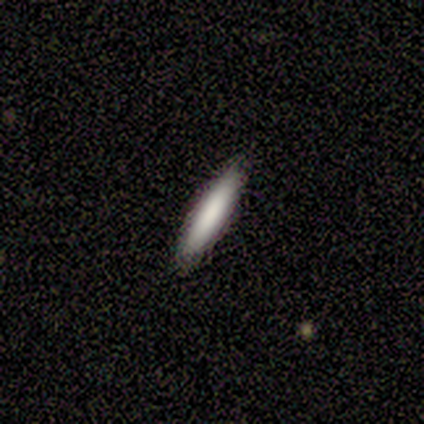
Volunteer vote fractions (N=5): Smooth or featured?
  - smooth: 80% *
  - featured or disk: 20%
  - star or artifact: 0%
How rounded?
  - cigar-shaped: 100% *
  - round: 0%
  - in between: 0%
Merging?
  - none: 100% *
  - minor disturbance: 0%
  - major disturbance: 0%
  - merger: 0%